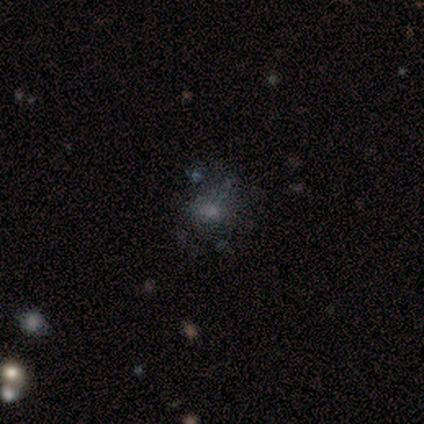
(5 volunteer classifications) A featured or disk galaxy (60%) with no bar (67%), no spiral arms (67%) and no central bulge (67%).

Vote fractions:
- Smooth or featured? featured or disk: 60% / star or artifact: 40% / smooth: 0%
- Edge-on disk? no: 100% / yes: 0%
- Bar? no: 67% / weak: 33% / strong: 0%
- Spiral arms? no: 67% / yes: 33%
- Bulge size? none: 67% / dominant: 33% / large: 0% / moderate: 0% / small: 0%
- Merging? minor disturbance: 67% / major disturbance: 33% / none: 0% / merger: 0%